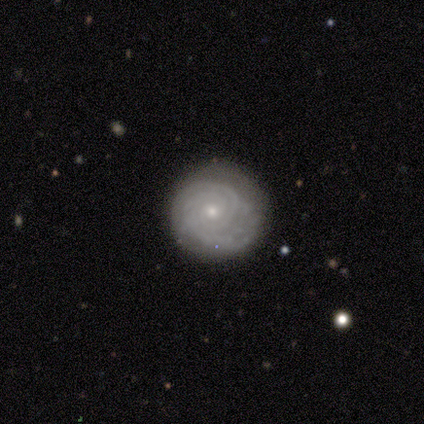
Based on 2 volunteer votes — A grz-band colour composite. It shows a smooth galaxy with no disk features (50%, tied with featured or disk) that is round (100%). Merging: none (100%).